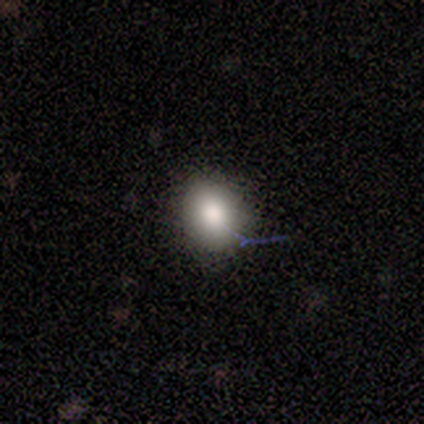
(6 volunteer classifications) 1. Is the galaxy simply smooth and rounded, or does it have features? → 100% smooth, 0% featured or disk, 0% star or artifact.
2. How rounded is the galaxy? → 83% round, 17% in between, 0% cigar-shaped.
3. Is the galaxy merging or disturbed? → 100% none, 0% minor disturbance, 0% major disturbance, 0% merger.